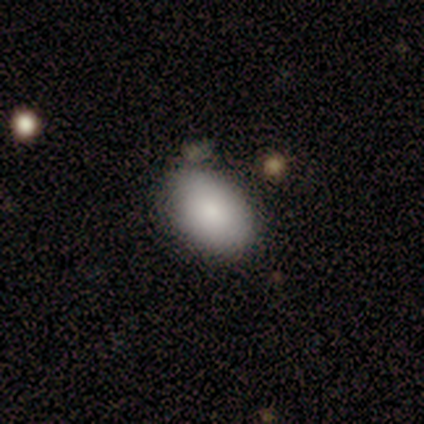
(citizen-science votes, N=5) A smooth galaxy with no disk features (80%) that is in between round and cigar-shaped (100%).

Vote fractions:
- Smooth or featured? smooth: 80% / featured or disk: 20% / star or artifact: 0%
- How rounded? in between: 100% / round: 0% / cigar-shaped: 0%
- Merging? none: 100% / minor disturbance: 0% / major disturbance: 0% / merger: 0%